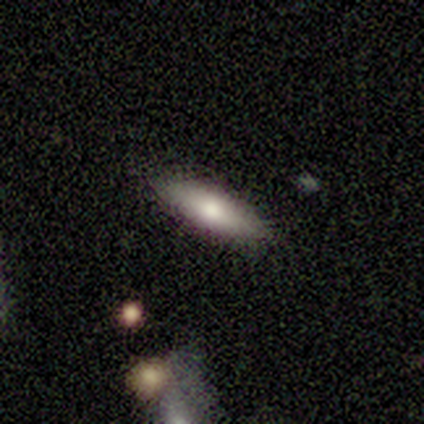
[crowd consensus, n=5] smooth-or-featured: smooth: 100% | featured or disk: 0% | star or artifact: 0%
  how-rounded: cigar-shaped: 80% | in between: 20% | round: 0%
  merging: none: 80% | minor disturbance: 20% | major disturbance: 0% | merger: 0%